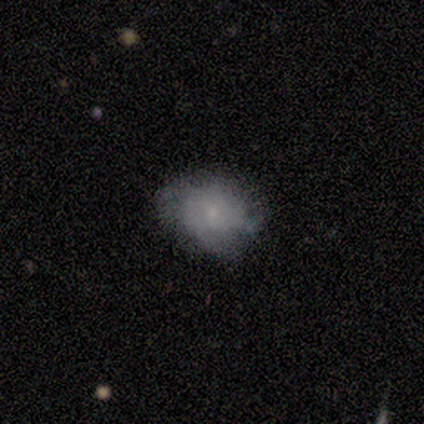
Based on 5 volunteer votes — Smooth or featured?
  - smooth: 80% *
  - featured or disk: 20%
  - star or artifact: 0%
How rounded?
  - round: 50% * (tied)
  - in between: 50% * (tied)
  - cigar-shaped: 0%
Merging?
  - none: 80% *
  - minor disturbance: 20%
  - major disturbance: 0%
  - merger: 0%